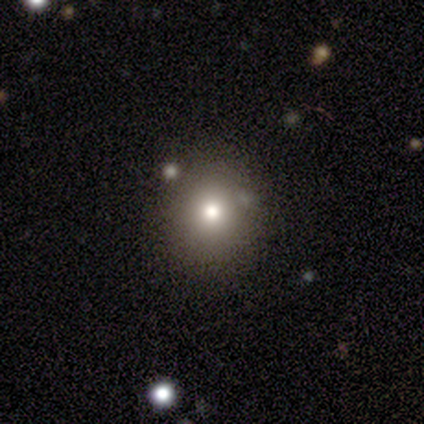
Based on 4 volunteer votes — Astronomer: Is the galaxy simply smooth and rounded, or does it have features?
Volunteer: smooth — 75%.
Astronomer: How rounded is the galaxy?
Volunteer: round — 100%.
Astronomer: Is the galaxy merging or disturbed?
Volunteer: none — 100%.